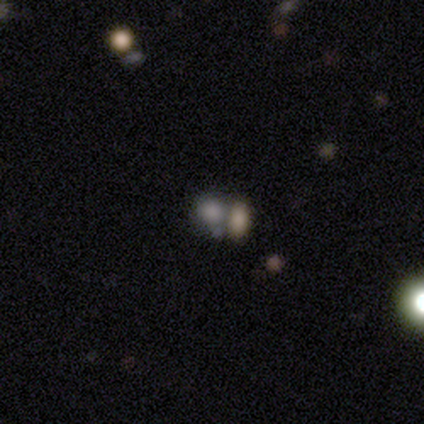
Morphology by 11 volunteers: smooth_or_featured: smooth (p=0.64) [alt: featured or disk p=0.27]
how_rounded: round (p=0.57) [alt: in between p=0.43]
merging: none (p=0.60) [alt: merger p=0.40]